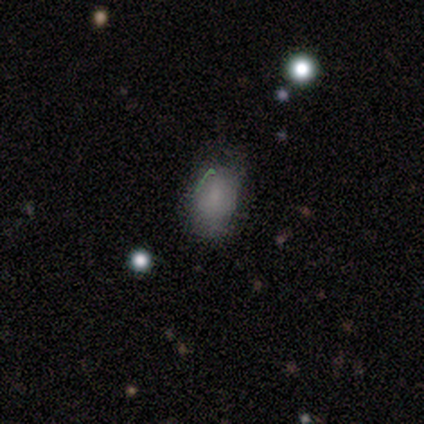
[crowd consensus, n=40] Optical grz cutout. It shows a smooth galaxy with no disk features (72%) that is in between round and cigar-shaped (79%). Merging: none (55%).